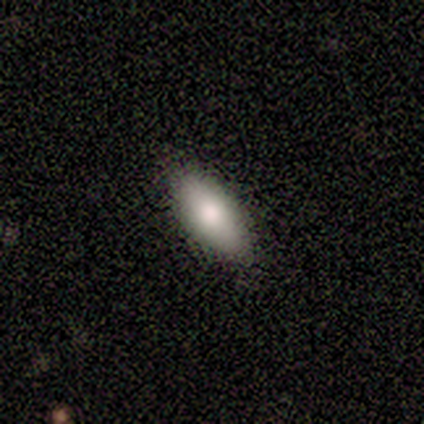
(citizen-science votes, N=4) Morphology: type=smooth (50%, tied with featured or disk); roundness=in between (50%, tied with cigar-shaped); merging=none (100%).